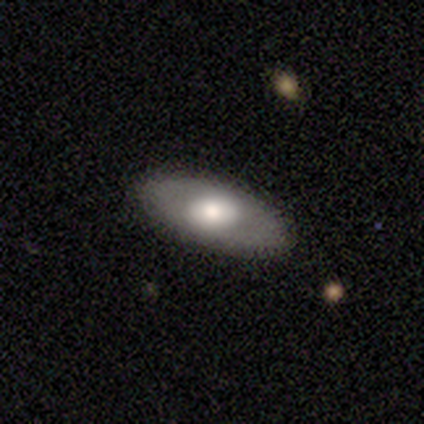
Overall: featured or disk (60%; smooth 40%). Edge-on disk: no (100%). Bar: no (67%; weak 33%). Spiral arms: no (100%). Bulge size: large (67%; moderate 33%). Merging: none (100%).